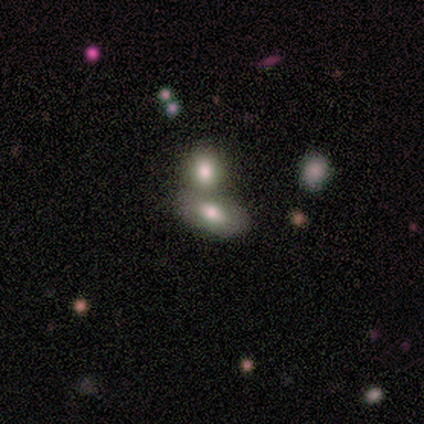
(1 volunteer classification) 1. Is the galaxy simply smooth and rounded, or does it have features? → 100% featured or disk, 0% smooth, 0% star or artifact.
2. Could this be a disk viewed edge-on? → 100% no, 0% yes.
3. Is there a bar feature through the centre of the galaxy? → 100% weak, 0% strong, 0% no.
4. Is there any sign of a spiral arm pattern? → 100% no, 0% yes.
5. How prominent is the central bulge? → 100% moderate, 0% dominant, 0% large, 0% small, 0% none.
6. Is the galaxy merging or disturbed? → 100% none, 0% minor disturbance, 0% major disturbance, 0% merger.